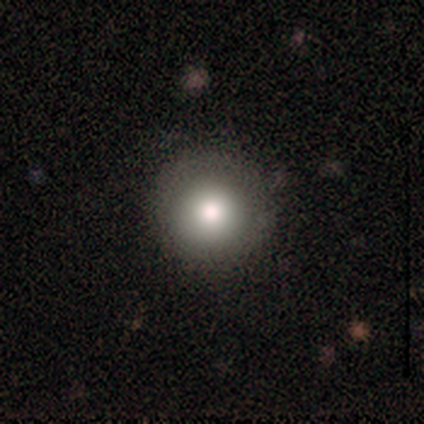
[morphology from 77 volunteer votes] Smooth or featured?
  - smooth: 83% *
  - featured or disk: 10%
  - star or artifact: 6%
How rounded?
  - round: 100% *
  - in between: 0%
  - cigar-shaped: 0%
Merging?
  - none: 54% *
  - minor disturbance: 4%
  - merger: 3%
  - major disturbance: 1%